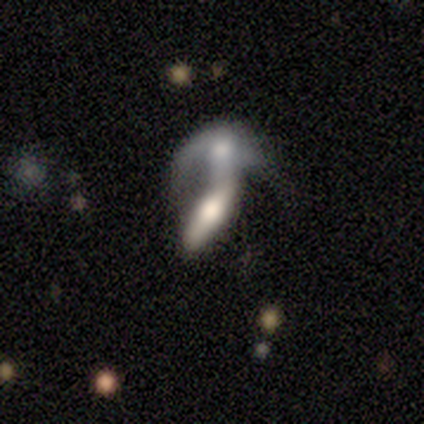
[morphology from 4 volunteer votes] This is likely a featured or disk galaxy (75%). It is likely not viewed edge-on (67%). Bar: possibly strong (50%, tied with no). Spiral arm pattern: clearly no (100%). Central bulge: clearly moderate (100%). Merging: clearly merger (100%).